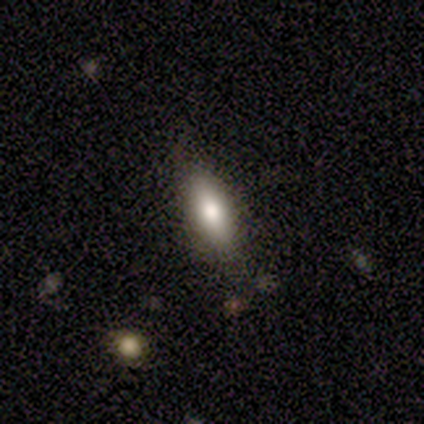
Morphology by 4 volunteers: smooth-or-featured: smooth: 50% | featured or disk: 25% | star or artifact: 25%
  how-rounded: in between: 50% (tied) | cigar-shaped: 50% (tied) | round: 0%
  merging: none: 100% | minor disturbance: 0% | major disturbance: 0% | merger: 0%